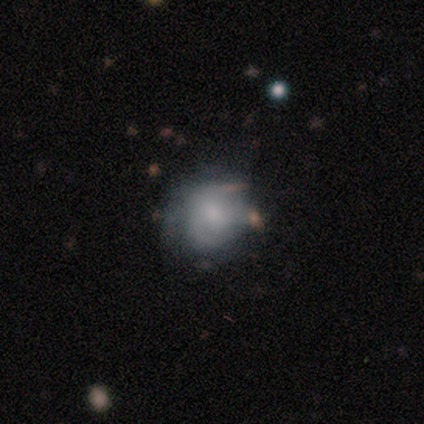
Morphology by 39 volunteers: smooth_or_featured: featured or disk (p=0.51) [alt: smooth p=0.46]
disk_edge_on: no (p=0.95) [alt: yes p=0.05]
bar: no (p=0.58) [alt: weak p=0.37]
has_spiral_arms: yes (p=0.74) [alt: no p=0.26]
spiral_winding: tight (p=0.36) [tied with: loose p=0.36]
spiral_arm_count: can't tell (p=0.57) [alt: 1 p=0.21]
bulge_size: small (p=0.42) [alt: none p=0.32]
merging: none (p=0.47) [alt: minor disturbance p=0.39]